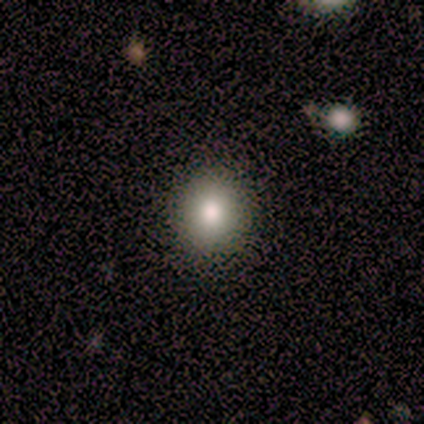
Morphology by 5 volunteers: Smooth or featured? 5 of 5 (100%) said smooth. How rounded? 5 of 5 (100%) said round. Merging? 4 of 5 (80%) said none.